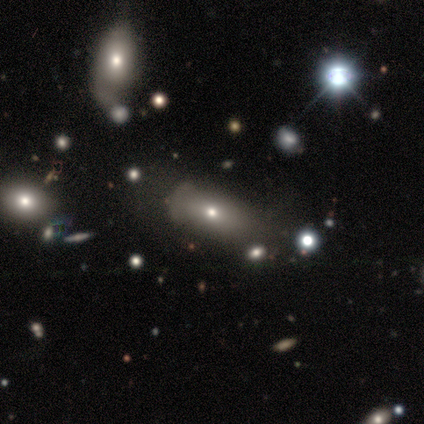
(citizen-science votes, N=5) A star or artifact, not a galaxy (60%).